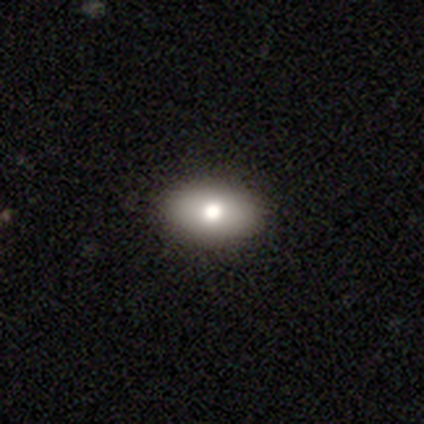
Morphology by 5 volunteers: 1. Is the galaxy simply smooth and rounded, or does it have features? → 80% smooth, 20% featured or disk, 0% star or artifact.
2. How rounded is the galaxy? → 75% in between, 25% round, 0% cigar-shaped.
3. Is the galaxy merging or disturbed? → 100% none, 0% minor disturbance, 0% major disturbance, 0% merger.